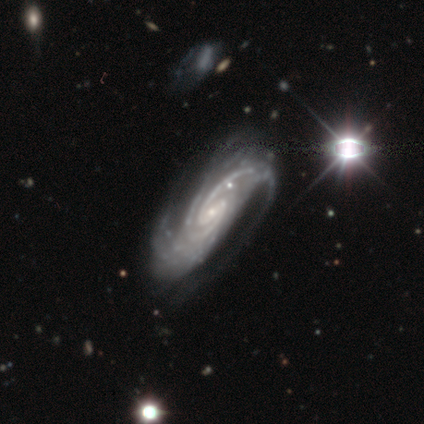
smooth-or-featured: featured or disk: 100% | smooth: 0% | star or artifact: 0%
  disk-edge-on: no: 100% | yes: 0%
    bar: weak: 60% | strong: 20% | no: 20%
    has-spiral-arms: yes: 100% | no: 0%
      spiral-winding: medium: 60% | tight: 40% | loose: 0%
      spiral-arm-count: 2: 40% | 3: 20% | 4: 20% | can't tell: 20% | 1: 0% | more than 4: 0%
    bulge-size: small: 100% | dominant: 0% | large: 0% | moderate: 0% | none: 0%
  merging: none: 60% | minor disturbance: 20% | major disturbance: 20% | merger: 0%